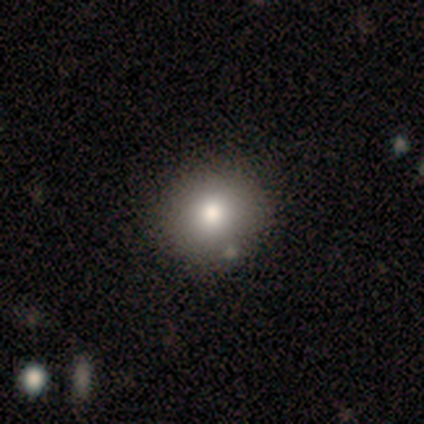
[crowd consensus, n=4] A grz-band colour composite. It shows a smooth galaxy with no disk features (75%) that is round (67%). Merging: none (67%).